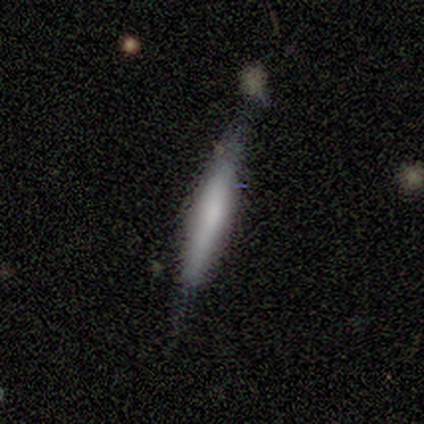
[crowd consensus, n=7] A smooth galaxy with no disk features (57%) that is cigar-shaped (100%).

Vote fractions:
- Smooth or featured? smooth: 57% / featured or disk: 43% / star or artifact: 0%
- How rounded? cigar-shaped: 100% / round: 0% / in between: 0%
- Merging? none: 71% / minor disturbance: 29% / major disturbance: 0% / merger: 0%